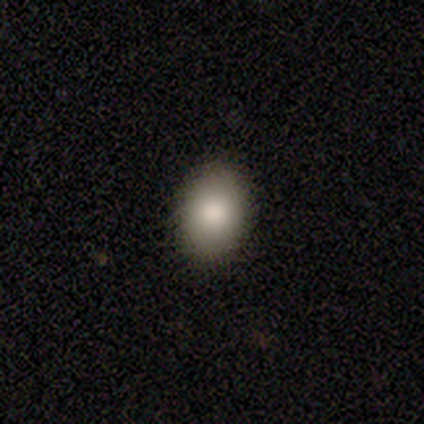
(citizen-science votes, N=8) smooth-or-featured: smooth: 88% | featured or disk: 12% | star or artifact: 0%
  how-rounded: in between: 71% | round: 29% | cigar-shaped: 0%
  merging: none: 88% | minor disturbance: 12% | major disturbance: 0% | merger: 0%